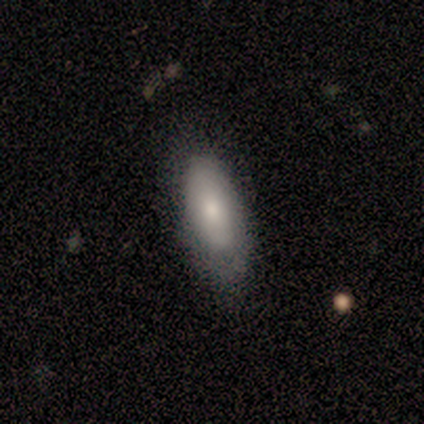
Smooth or featured? smooth (100%)
How rounded? in between (60%)
Merging? minor disturbance (60%)